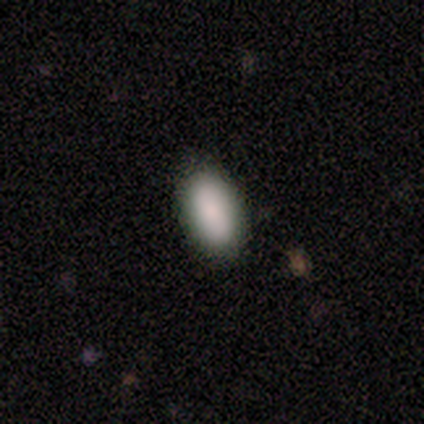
smooth 75%, star or artifact 25%, featured or disk 0%. Down the decision tree: how rounded — in between (89%); merging — none (100%).